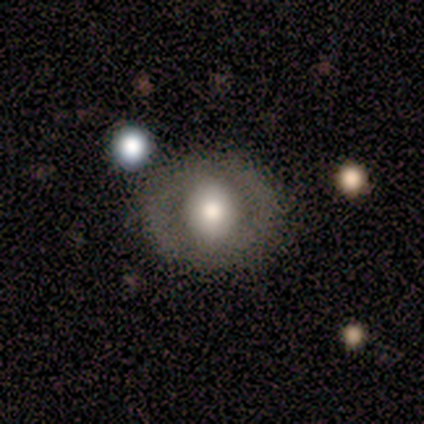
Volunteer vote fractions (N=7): Smooth or featured? featured or disk (71%)
Edge-on disk? no (100%)
Bar? no (60%)
Spiral arms? no (60%)
Bulge size? large (60%)
Merging? none (100%)